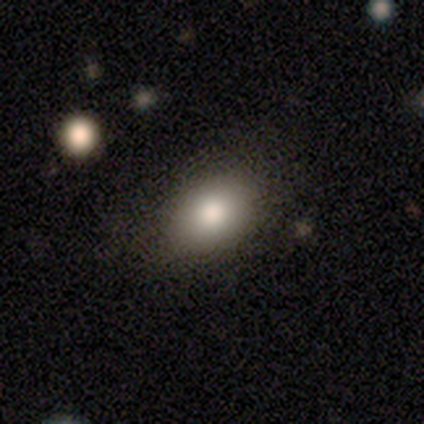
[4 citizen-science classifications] Smooth or featured? smooth (100%)
How rounded? in between (100%)
Merging? none (100%)